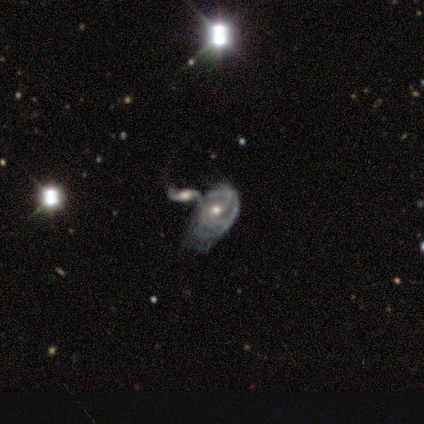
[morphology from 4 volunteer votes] featured or disk 100%, smooth 0%, star or artifact 0%. Down the decision tree: edge-on disk — no (100%); bar — no (50%); spiral arms — yes (100%); spiral arm count — can't tell (50%); spiral winding — loose (50%); bulge size — moderate (50%, tied with small); merging — merger (100%).